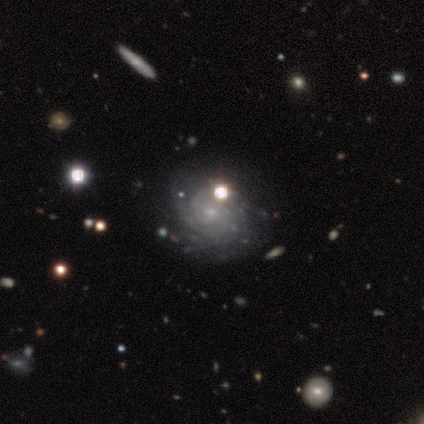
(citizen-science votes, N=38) smooth_or_featured: featured or disk (p=0.89) [alt: smooth p=0.05]
disk_edge_on: no (p=1.00)
bar: no (p=0.79) [alt: weak p=0.18]
has_spiral_arms: yes (p=0.94) [alt: no p=0.06]
spiral_winding: tight (p=0.84) [alt: medium p=0.16]
spiral_arm_count: can't tell (p=0.44) [alt: 2 p=0.19]
bulge_size: small (p=0.91) [alt: moderate p=0.06]
merging: none (p=0.36) [alt: minor disturbance p=0.08]